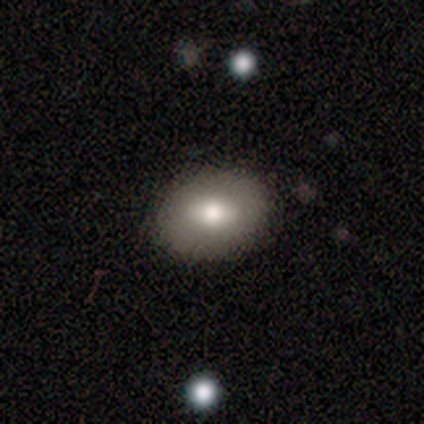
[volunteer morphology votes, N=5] This appears to be a smooth galaxy with no disk features (100%) that is round (60%). Merging: none (80%).